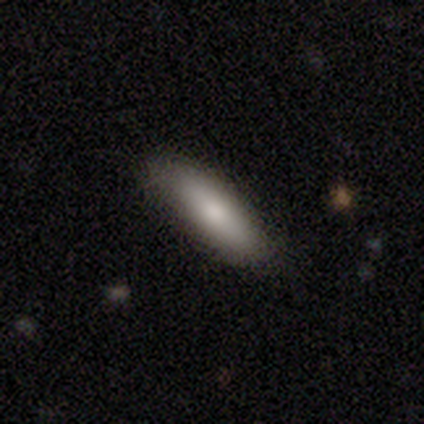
Smooth or featured? smooth (80%)
How rounded? in between (50%, tied with cigar-shaped)
Merging? none (100%)